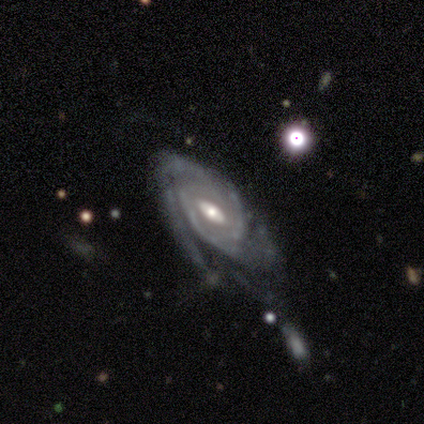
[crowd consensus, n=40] Smooth or featured: featured or disk — 90% (smooth — 5%)
Edge-on disk: no — 89% (yes — 11%)
Bar: no — 62% (weak — 25%)
Spiral arms: yes — 97% (no — 3%)
Spiral winding: tight — 68% (medium — 16%)
Spiral arm count: can't tell — 42% (2 — 23%)
Bulge size: moderate — 66% (small — 22%)
Merging: none — 45% (minor disturbance — 32%)